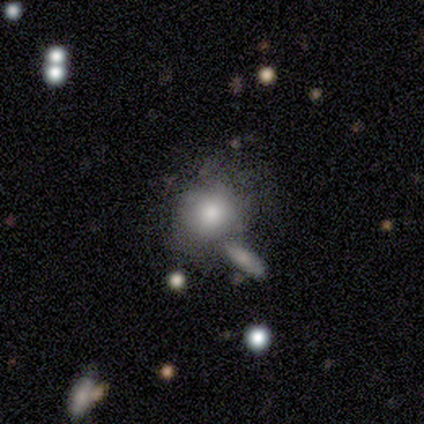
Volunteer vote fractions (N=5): smooth_or_featured: smooth (p=0.60) [alt: featured or disk p=0.20]
how_rounded: round (p=1.00)
merging: merger (p=0.50) [alt: none p=0.25]